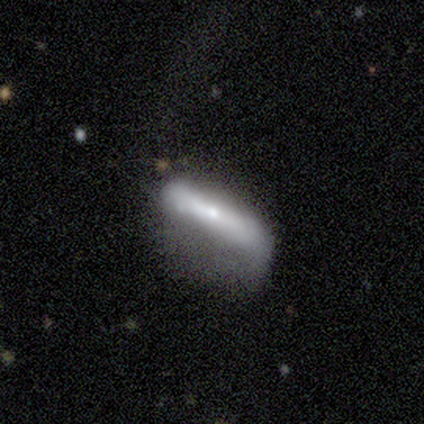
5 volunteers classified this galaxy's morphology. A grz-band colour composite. It shows a featured or disk galaxy (60%) with a strong bar (50%, tied with no), 2 (100%) loose (100%) spiral arms (50%, tied with no) and a small central bulge (50%, tied with none). Merging: none (40%, tied with major disturbance).